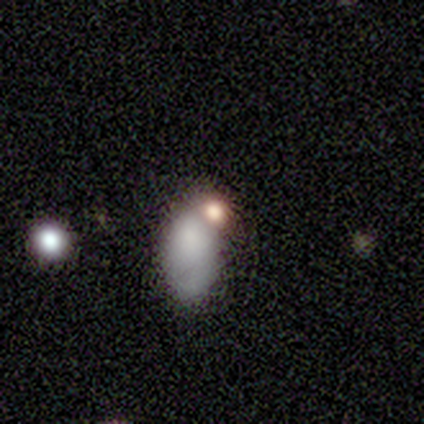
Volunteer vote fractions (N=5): Morphology: type=smooth (80%); roundness=in between (100%); merging=merger (60%).